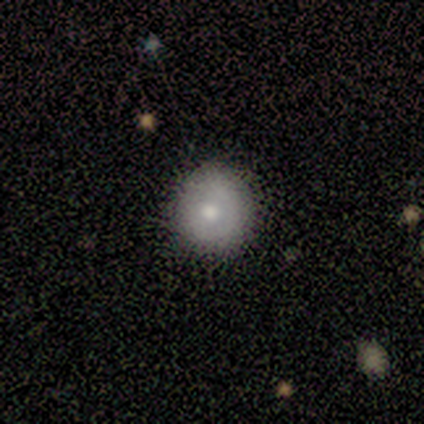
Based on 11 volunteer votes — smooth 82%, featured or disk 18%, star or artifact 0%. Down the decision tree: how rounded — round (100%); merging — none (55%).